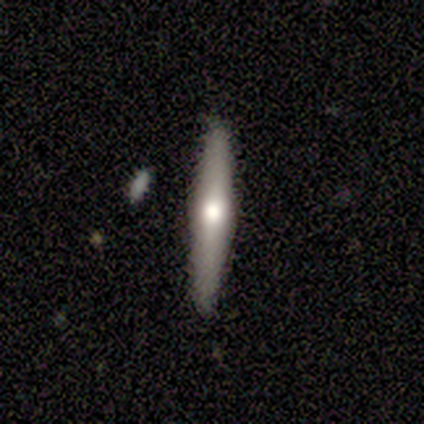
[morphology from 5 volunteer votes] Smooth or featured: featured or disk — 60% (smooth — 40%)
Edge-on disk: yes — 67% (no — 33%)
Edge-on bulge: rounded — 100%
Merging: none — 100%